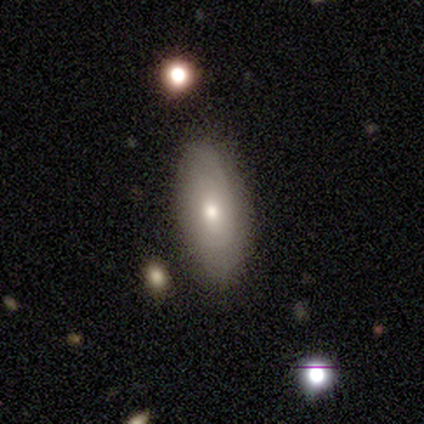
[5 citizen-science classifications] This is likely a featured or disk galaxy (60%). It is clearly not viewed edge-on (100%). Bar: clearly no (100%). Spiral arm pattern: likely yes (67%). Spiral arm count: clearly can't tell (100%). Spiral winding: possibly tight (50%, tied with medium). Central bulge: clearly moderate (100%). Merging: clearly none (80%).